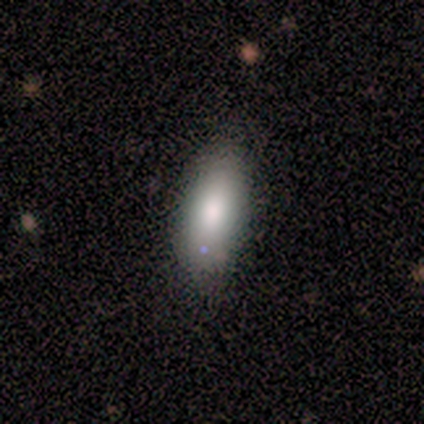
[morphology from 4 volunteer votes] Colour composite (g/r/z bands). It shows a smooth galaxy with no disk features (75%) that is in between round and cigar-shaped (67%). Merging: minor disturbance (67%).